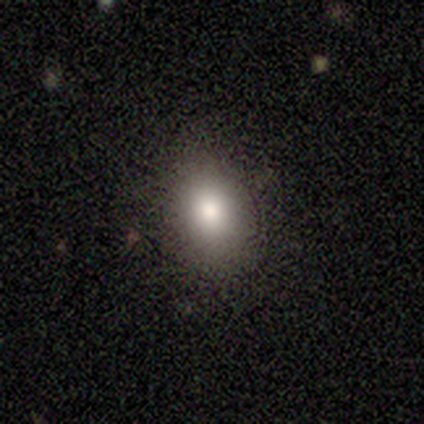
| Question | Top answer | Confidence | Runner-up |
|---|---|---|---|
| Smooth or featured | smooth | 60% | featured or disk (40%) |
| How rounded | in between | 100% | — |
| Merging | none | 100% | — |